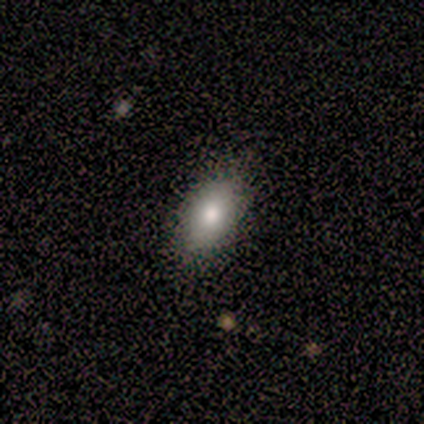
Volunteers were most divided on "merging": none: 86%, minor disturbance: 11%, major disturbance: 3%, merger: 0%. More confident: how rounded — in between (94%); smooth or featured — smooth (84%).